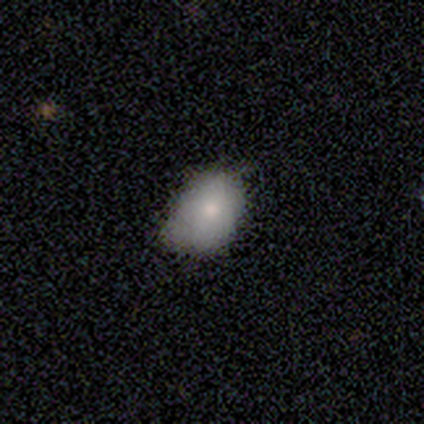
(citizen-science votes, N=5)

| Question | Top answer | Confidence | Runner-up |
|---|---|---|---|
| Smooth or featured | smooth | 80% | featured or disk (20%) |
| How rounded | in between | 100% | — |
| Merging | none | 80% | minor disturbance (20%) |